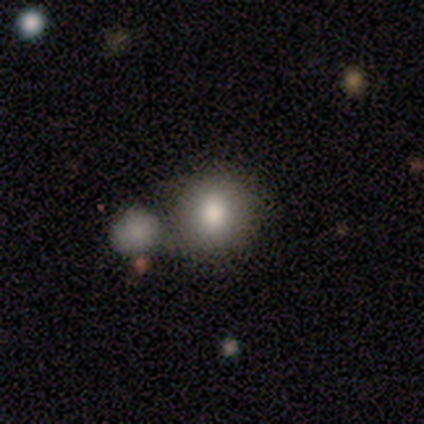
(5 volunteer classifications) Volunteers were most divided on "how rounded": round: 80%, in between: 20%, cigar-shaped: 0%. More confident: smooth or featured — smooth (100%); merging — none (80%).